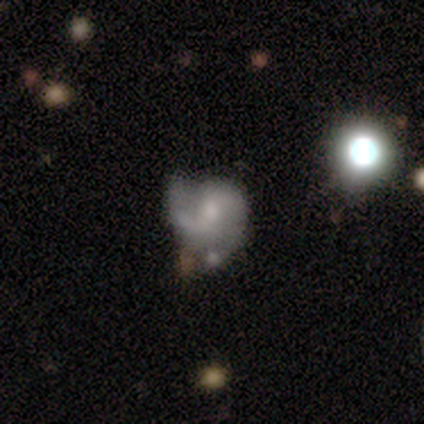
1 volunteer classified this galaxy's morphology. type=featured or disk (100%); edge-on=no (100%); bar=weak (100%); spiral arms=yes (100%); winding=medium (100%); arm count=2 (100%); bulge=small (100%); merging=merger (100%).